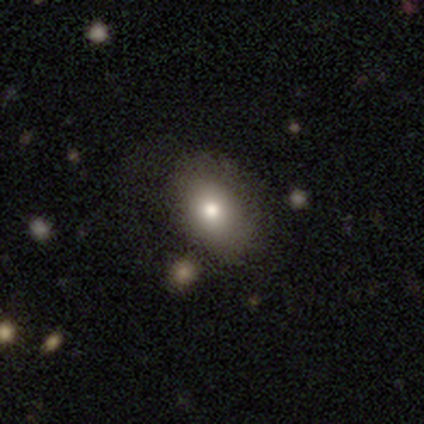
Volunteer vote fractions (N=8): A smooth galaxy with no disk features (88%) that is in between round and cigar-shaped (86%). Merging: none (75%).